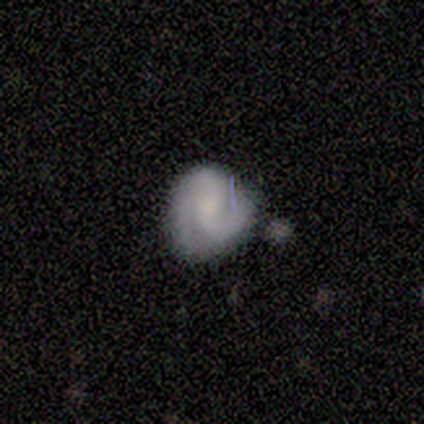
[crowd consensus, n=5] Volunteers were most divided on "smooth or featured": featured or disk: 60%, smooth: 40%, star or artifact: 0%. More confident: edge-on disk — no (100%); spiral arms — yes (100%); spiral winding — medium (100%); bar — no (67%); spiral arm count — 3 (67%); bulge size — none (67%); merging — minor disturbance (60%).